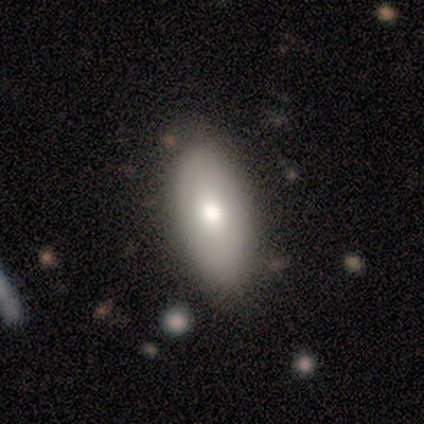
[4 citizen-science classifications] This is clearly a smooth galaxy (100%). How rounded: clearly in between (100%). Merging: clearly none (100%).